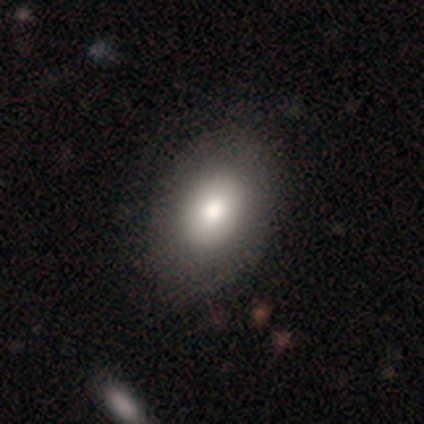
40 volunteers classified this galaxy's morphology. Smooth or featured?
  - smooth: 68% *
  - featured or disk: 25%
  - star or artifact: 8%
How rounded?
  - in between: 78% *
  - round: 22%
  - cigar-shaped: 0%
Merging?
  - none: 62% *
  - minor disturbance: 8%
  - merger: 5%
  - major disturbance: 3%